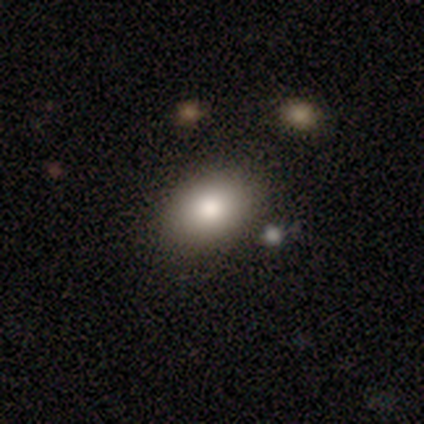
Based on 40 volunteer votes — This is clearly a smooth galaxy (92%). How rounded: clearly in between (84%). Merging: clearly none (90%).